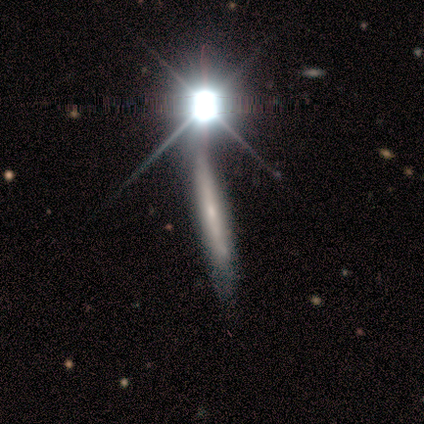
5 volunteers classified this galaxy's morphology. This is marginally a featured or disk galaxy (40%, tied with star or artifact). It is possibly viewed edge-on (50%, tied with no). Edge-on bulge: clearly none (100%). Merging: marginally none (33%, tied with minor disturbance and merger).